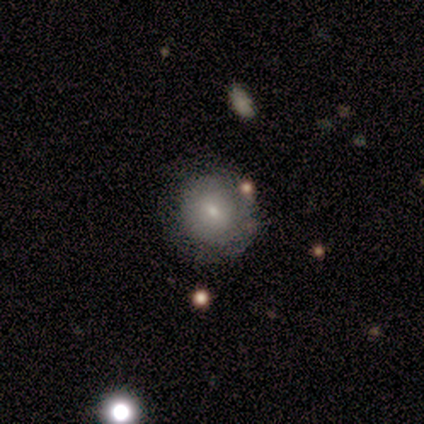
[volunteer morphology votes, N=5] Volunteers were most divided on "smooth or featured": featured or disk: 60%, smooth: 40%, star or artifact: 0%. More confident: edge-on disk — no (100%); bar — no (100%); bulge size — moderate (100%); merging — none (100%); spiral arms — no (67%).